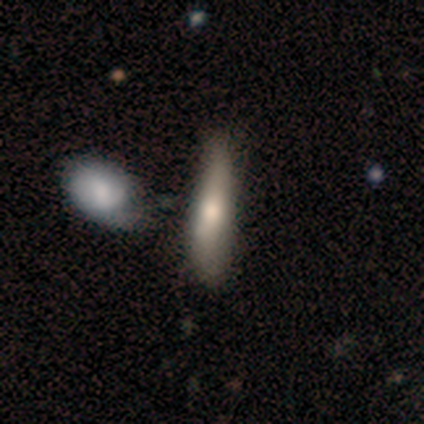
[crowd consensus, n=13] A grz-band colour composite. It shows a smooth galaxy with no disk features (100%) that is cigar-shaped (69%). Merging: none (54%).